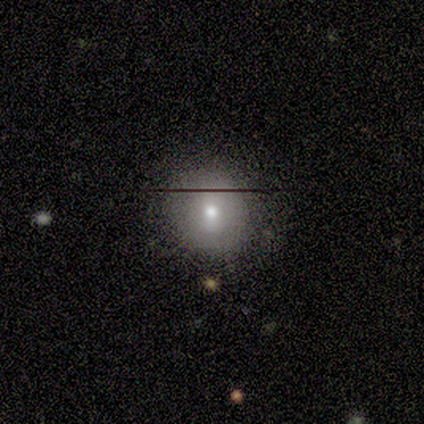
Q: Smooth or featured?
A: smooth (88%); runner-up: featured or disk (12%)
Q: How rounded?
A: round (100%)
Q: Merging?
A: none (88%); runner-up: minor disturbance (12%)